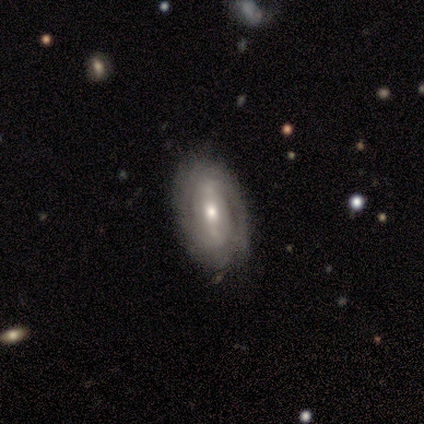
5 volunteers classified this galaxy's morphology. This is clearly a featured or disk galaxy (100%). It is clearly not viewed edge-on (100%). Bar: likely strong (60%). Spiral arm pattern: clearly yes (100%). Spiral arm count: marginally 2 (40%, tied with can't tell). Spiral winding: clearly tight (80%). Central bulge: likely moderate (60%). Merging: clearly none (100%).